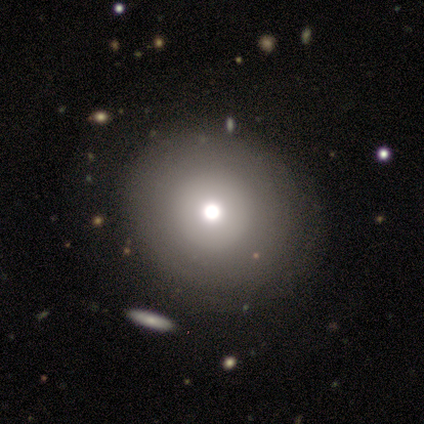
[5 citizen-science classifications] Overall: smooth (80%). How rounded: round (75%). Merging: none (60%; minor disturbance 20%).